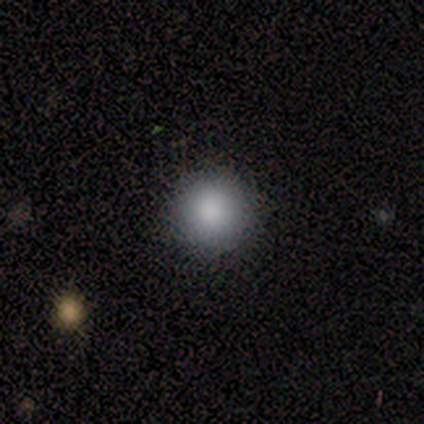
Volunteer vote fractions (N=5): Smooth or featured? smooth (100%)
How rounded? round (100%)
Merging? none (100%)